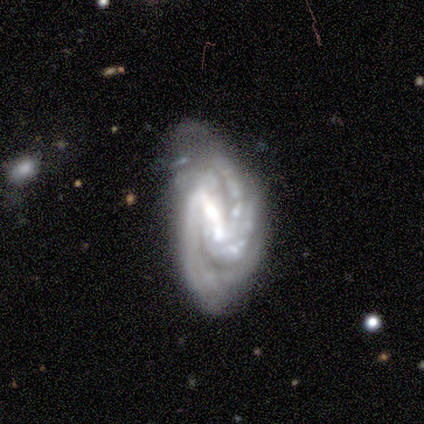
A featured or disk galaxy (88%) with a strong bar (71%), 2 (43%) tight (57%) spiral arms (100%) and a large central bulge (29%, tied with moderate and none).

Vote fractions:
- Smooth or featured? featured or disk: 88% / star or artifact: 12% / smooth: 0%
- Edge-on disk? no: 100% / yes: 0%
- Bar? strong: 71% / weak: 29% / no: 0%
- Spiral arms? yes: 100% / no: 0%
- Spiral winding? tight: 57% / medium: 43% / loose: 0%
- Spiral arm count? 2: 43% / 3: 29% / more than 4: 14% / can't tell: 14% / 1: 0% / 4: 0%
- Bulge size? large: 29% (tied) / moderate: 29% (tied) / none: 29% (tied) / small: 14% / dominant: 0%
- Merging? none: 57% / minor disturbance: 29% / major disturbance: 14% / merger: 0%